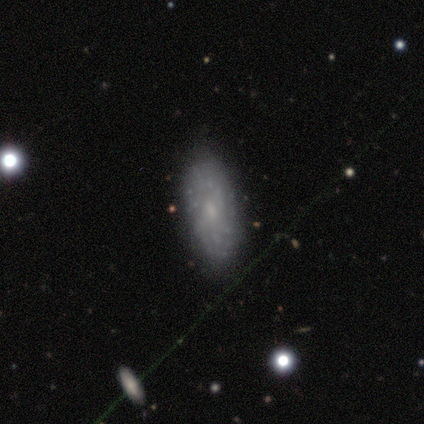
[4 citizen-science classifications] smooth-or-featured: smooth: 50% (tied) | featured or disk: 50% (tied) | star or artifact: 0%
  how-rounded: in between: 100% | round: 0% | cigar-shaped: 0%
  merging: none: 75% | minor disturbance: 25% | major disturbance: 0% | merger: 0%